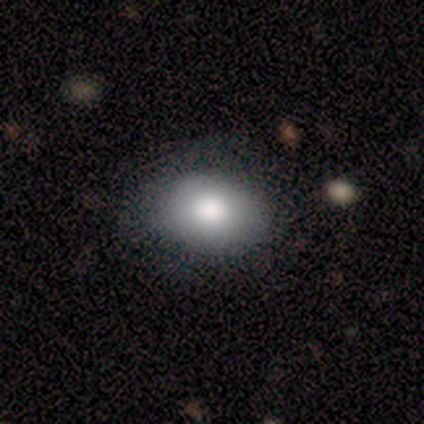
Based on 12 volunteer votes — A smooth galaxy with no disk features (83%) that is in between round and cigar-shaped (60%).

Vote fractions:
- Smooth or featured? smooth: 83% / featured or disk: 17% / star or artifact: 0%
- How rounded? in between: 60% / round: 40% / cigar-shaped: 0%
- Merging? none: 83% / minor disturbance: 8% / major disturbance: 8% / merger: 0%